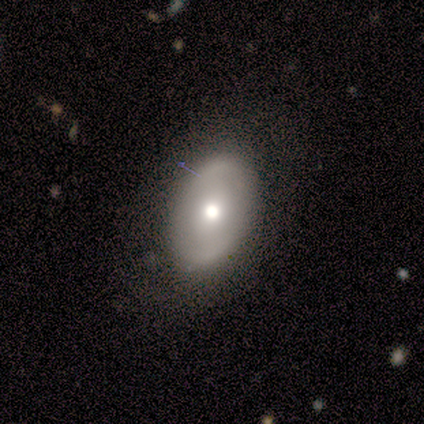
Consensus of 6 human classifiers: This is possibly a smooth galaxy (50%, tied with featured or disk). How rounded: likely in between (67%). Merging: clearly none (83%).